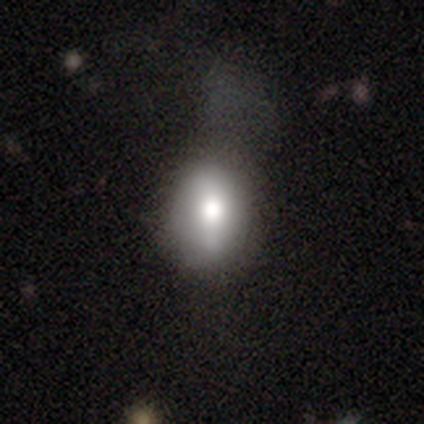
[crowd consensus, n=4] Smooth or featured? smooth (50%, tied with featured or disk)
How rounded? round (50%, tied with in between)
Merging? major disturbance (50%)